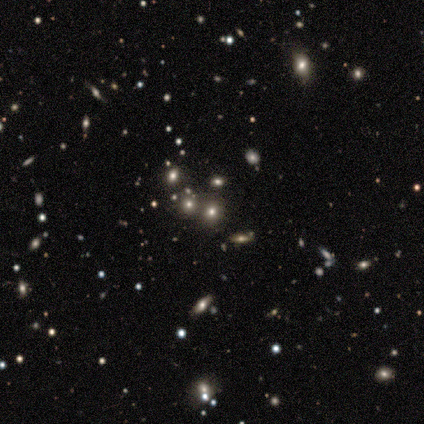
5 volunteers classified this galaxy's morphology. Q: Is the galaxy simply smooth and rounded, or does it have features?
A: smooth — 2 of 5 (40%, tied with star or artifact).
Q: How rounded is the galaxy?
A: round — 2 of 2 (100%).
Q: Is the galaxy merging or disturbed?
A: none — 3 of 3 (100%).